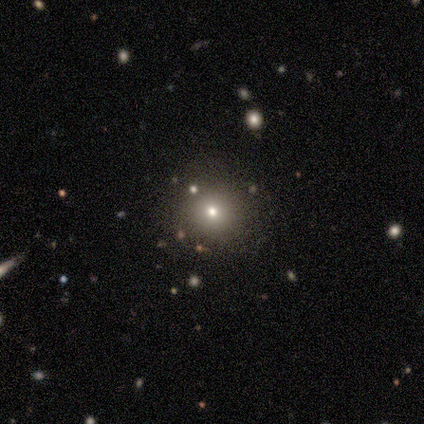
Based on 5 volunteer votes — Overall: smooth (80%). How rounded: round (100%). Merging: none (100%).